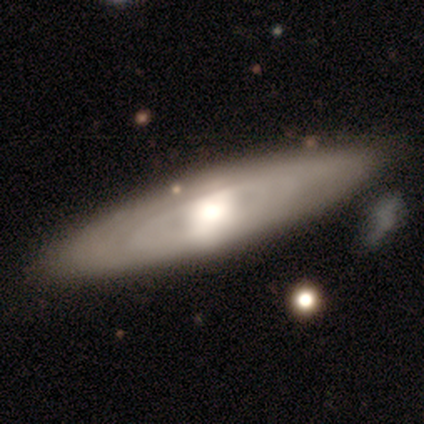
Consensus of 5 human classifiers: smooth_or_featured: featured or disk (p=1.00)
disk_edge_on: no (p=1.00)
bar: no (p=0.60) [alt: weak p=0.40]
has_spiral_arms: no (p=0.80) [alt: yes p=0.20]
bulge_size: large (p=0.40) [tied with: moderate p=0.40]
merging: none (p=0.60) [alt: minor disturbance p=0.20]